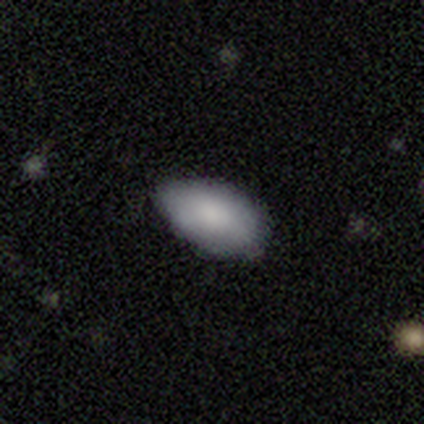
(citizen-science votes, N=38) Smooth or featured: smooth — 84% (featured or disk — 8%)
How rounded: in between — 94% (round — 6%)
Merging: none — 57% (minor disturbance — 40%)